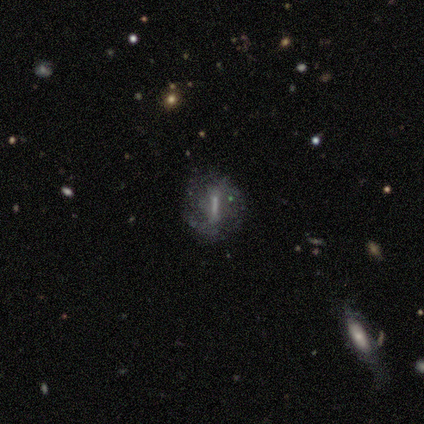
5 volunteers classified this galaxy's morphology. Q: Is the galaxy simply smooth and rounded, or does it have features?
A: featured or disk — 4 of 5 (80%).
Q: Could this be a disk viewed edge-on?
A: no — 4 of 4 (100%).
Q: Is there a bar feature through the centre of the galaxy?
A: strong — 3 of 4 (75%).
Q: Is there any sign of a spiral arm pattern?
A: no — 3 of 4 (75%).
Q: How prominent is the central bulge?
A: small — 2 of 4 (50%, tied with none).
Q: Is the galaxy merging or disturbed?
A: none — 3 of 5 (60%).